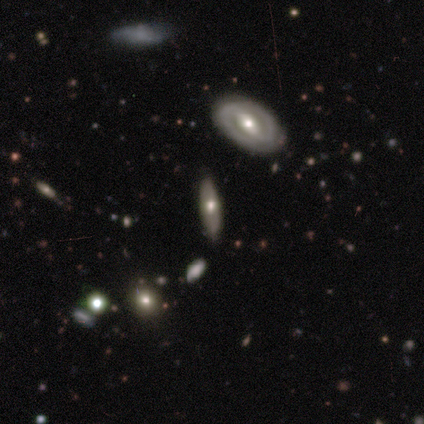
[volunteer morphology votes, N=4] This is likely a smooth galaxy (75%). How rounded: likely in between (67%). Merging: likely none (75%).